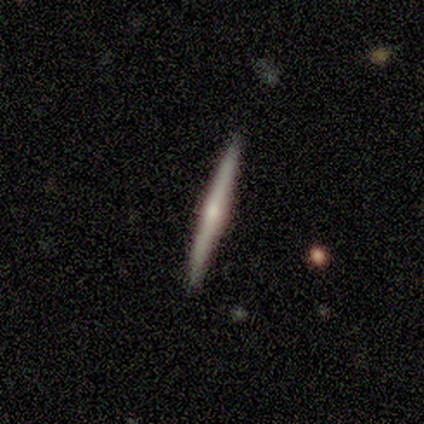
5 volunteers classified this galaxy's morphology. type=featured or disk (80%); edge-on=yes (100%); edge-on bulge=rounded (75%); merging=none (100%).